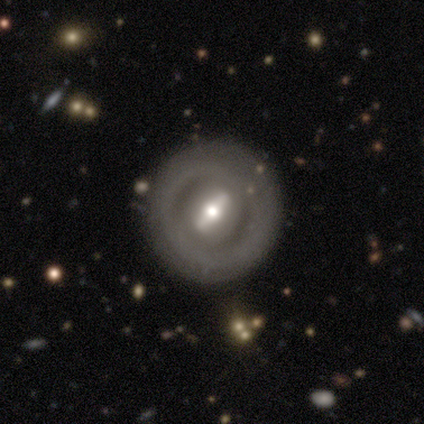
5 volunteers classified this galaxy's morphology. Volunteers were most divided on "bar" (2-way tie): strong: 50%, no: 50%, weak: 0%; "bulge size" (4-way tie): large: 25%, moderate: 25%, small: 25%, none: 25%, dominant: 0%. More confident: smooth or featured — featured or disk (100%); merging — none (100%); edge-on disk — no (80%); spiral arms — no (75%).